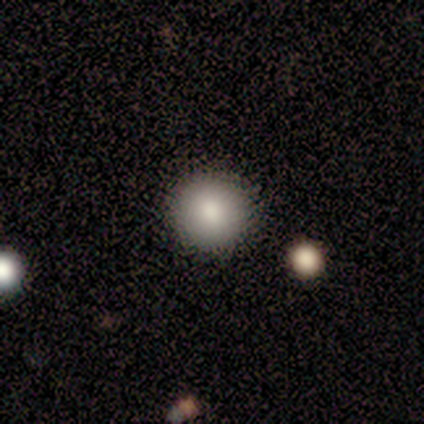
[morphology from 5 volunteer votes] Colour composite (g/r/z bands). It shows a smooth galaxy with no disk features (80%) that is round (100%). Merging: none (100%).